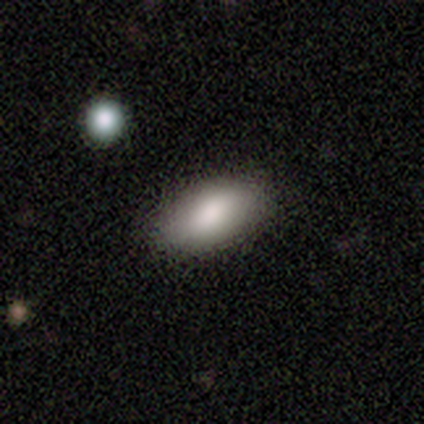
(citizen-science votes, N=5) Q: Smooth or featured?
A: smooth (100%)
Q: How rounded?
A: in between (100%)
Q: Merging?
A: none (100%)